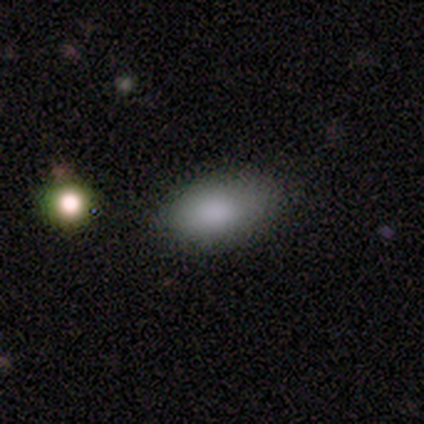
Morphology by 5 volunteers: Overall: smooth (100%). How rounded: in between (100%). Merging: minor disturbance (100%).